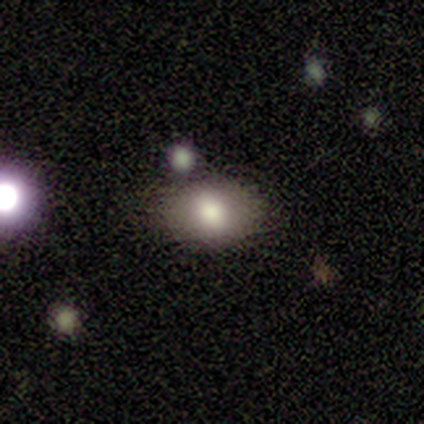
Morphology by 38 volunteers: smooth-or-featured: smooth: 74% | featured or disk: 21% | star or artifact: 5%
  how-rounded: in between: 75% | round: 25% | cigar-shaped: 0%
  merging: none: 75% | minor disturbance: 14% | merger: 11% | major disturbance: 0%